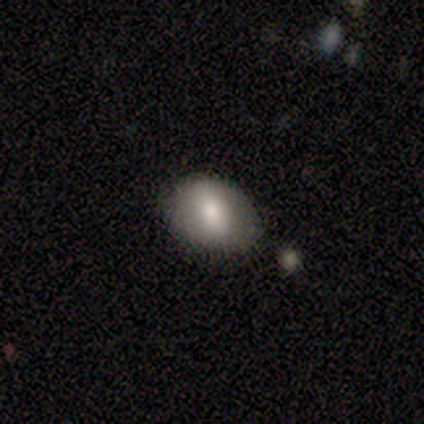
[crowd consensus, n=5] Overall: smooth (100%). How rounded: in between (80%). Merging: none (100%).